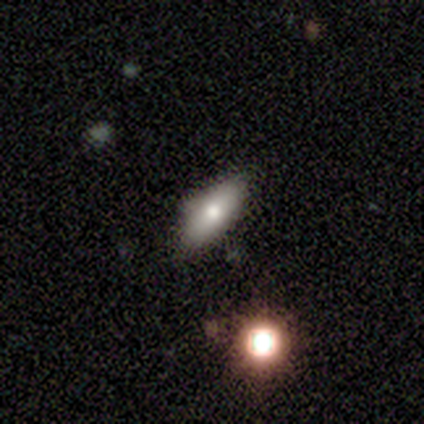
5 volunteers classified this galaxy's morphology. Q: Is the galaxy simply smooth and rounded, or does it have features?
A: smooth — 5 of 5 (100%).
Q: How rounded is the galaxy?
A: in between — 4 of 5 (80%).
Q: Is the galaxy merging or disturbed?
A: none — 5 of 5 (100%).